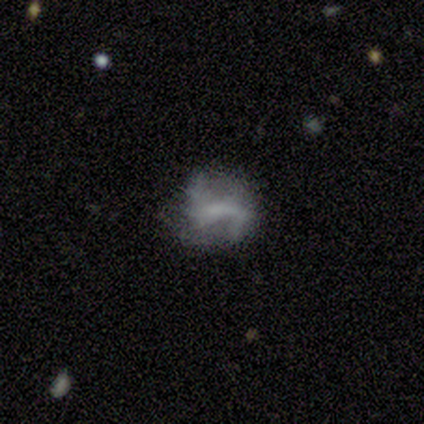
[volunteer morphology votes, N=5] Overall: featured or disk (80%). Edge-on disk: no (100%). Bar: no (50%; strong 25%). Spiral arms: yes (50%, tied with no). Spiral arm count: 2 (100%). Spiral winding: medium (50%, tied with loose). Bulge size: none (75%). Merging: none (80%).